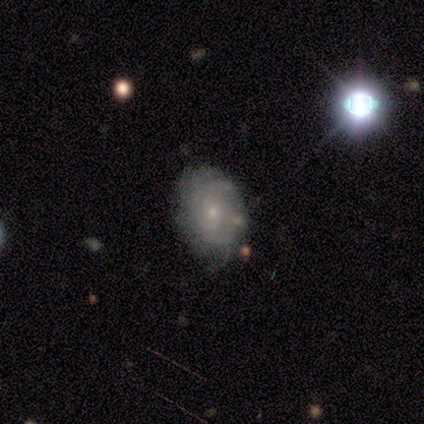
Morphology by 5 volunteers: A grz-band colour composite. It shows a featured or disk galaxy (100%) with no bar (80%), tight (100%) spiral arms (100%) and a small central bulge (100%). Merging: none (60%).